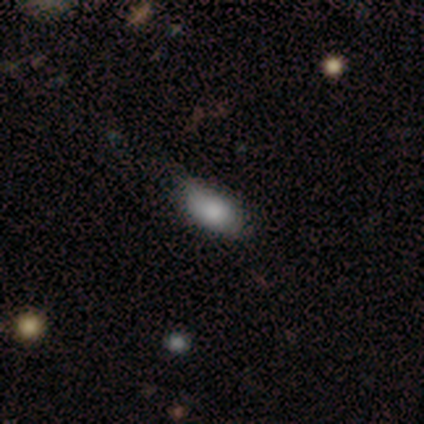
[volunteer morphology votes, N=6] Overall: smooth (83%). How rounded: in between (80%). Merging: minor disturbance (67%; none 33%).